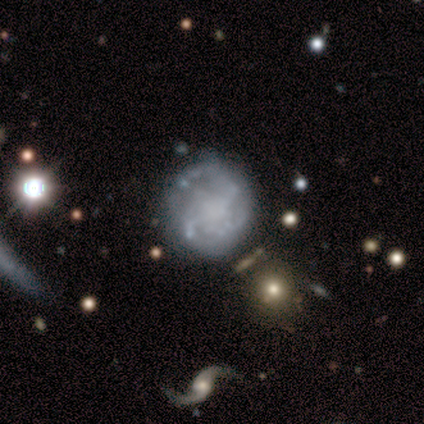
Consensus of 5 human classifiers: smooth-or-featured: featured or disk: 80% | smooth: 20% | star or artifact: 0%
  disk-edge-on: no: 100% | yes: 0%
    bar: strong: 50% | weak: 25% | no: 25%
    has-spiral-arms: yes: 100% | no: 0%
      spiral-winding: loose: 75% | medium: 25% | tight: 0%
      spiral-arm-count: 2: 75% | can't tell: 25% | 1: 0% | 3: 0% | 4: 0% | more than 4: 0%
    bulge-size: none: 50% | moderate: 25% | small: 25% | dominant: 0% | large: 0%
  merging: none: 80% | merger: 20% | minor disturbance: 0% | major disturbance: 0%